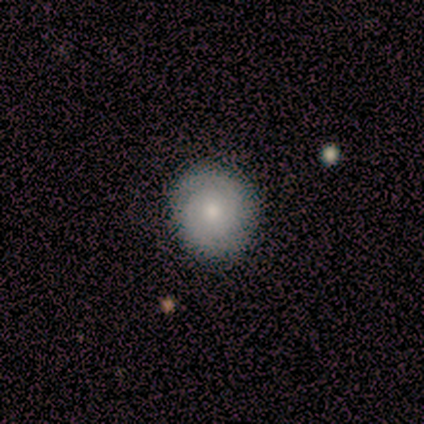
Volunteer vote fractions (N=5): Smooth or featured? 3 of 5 (60%) said smooth. How rounded? 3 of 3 (100%) said round. Merging? 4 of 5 (80%) said none.